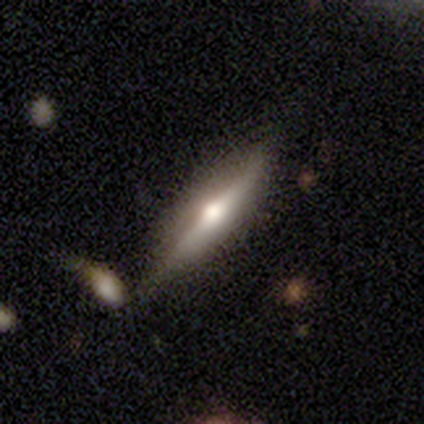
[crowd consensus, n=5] This appears to be a featured or disk galaxy (60%) viewed edge-on (100%) with a rounded central bulge (100%). Merging: none (60%).